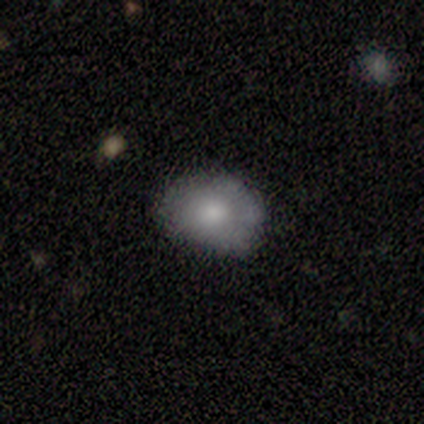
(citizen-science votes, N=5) A smooth galaxy with no disk features (80%) that is in between round and cigar-shaped (75%).

Vote fractions:
- Smooth or featured? smooth: 80% / featured or disk: 20% / star or artifact: 0%
- How rounded? in between: 75% / round: 25% / cigar-shaped: 0%
- Merging? none: 80% / minor disturbance: 20% / major disturbance: 0% / merger: 0%